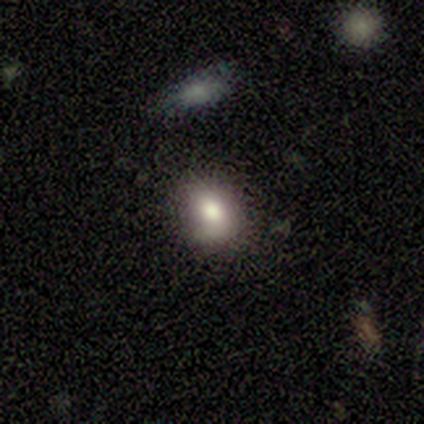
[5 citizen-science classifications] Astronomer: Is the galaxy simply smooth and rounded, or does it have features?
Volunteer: smooth — 100%.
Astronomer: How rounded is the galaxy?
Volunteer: in between — 60% (runner-up: round, 40%).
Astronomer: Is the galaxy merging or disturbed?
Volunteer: none — 100%.